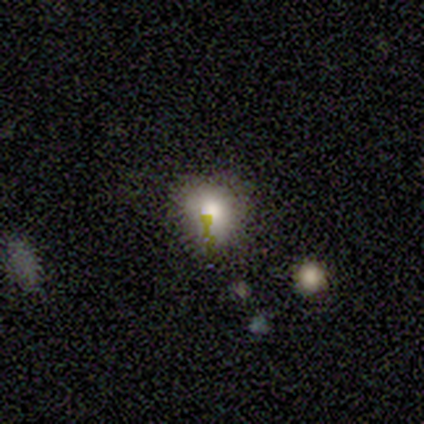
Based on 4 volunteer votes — smooth-or-featured: smooth: 75% | star or artifact: 25% | featured or disk: 0%
  how-rounded: round: 100% | in between: 0% | cigar-shaped: 0%
  merging: minor disturbance: 67% | none: 33% | major disturbance: 0% | merger: 0%